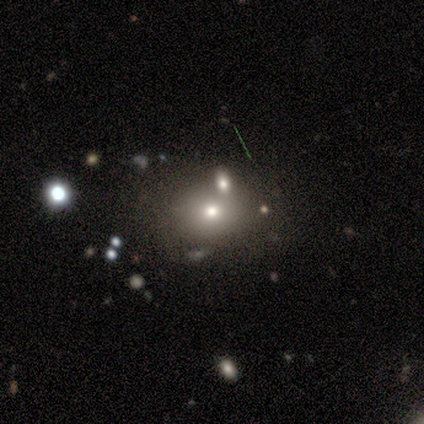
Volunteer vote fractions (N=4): Smooth or featured? 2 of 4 (50%, tied with star or artifact) said smooth. How rounded? 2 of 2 (100%) said round. Merging? 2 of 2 (100%) said none.